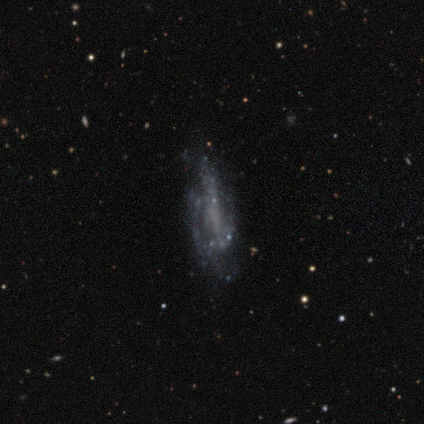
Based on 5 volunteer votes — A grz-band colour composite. It shows a smooth galaxy with no disk features (60%) that is in between round and cigar-shaped (67%). Merging: minor disturbance (60%).